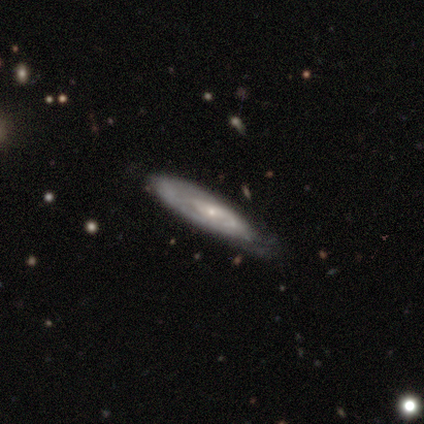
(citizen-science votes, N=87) Overall: featured or disk (66%; smooth 30%). Edge-on disk: no (61%; yes 39%). Bar: no (77%). Spiral arms: yes (77%). Spiral arm count: can't tell (67%). Spiral winding: tight (67%). Bulge size: small (83%). Merging: none (60%; minor disturbance 33%).